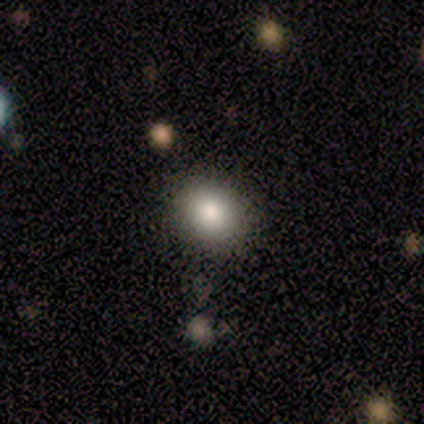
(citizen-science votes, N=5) Smooth or featured?
  - smooth: 60% *
  - featured or disk: 40%
  - star or artifact: 0%
How rounded?
  - in between: 67% *
  - round: 33%
  - cigar-shaped: 0%
Merging?
  - none: 80% *
  - minor disturbance: 20%
  - major disturbance: 0%
  - merger: 0%